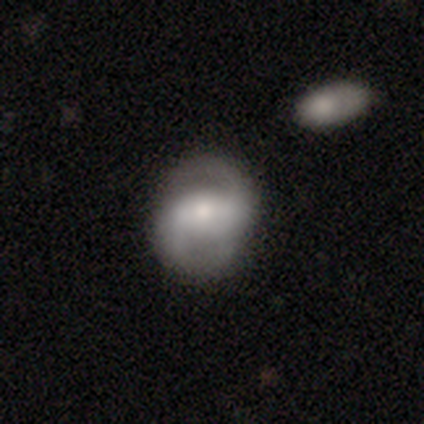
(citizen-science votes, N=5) Smooth or featured? featured or disk (100%)
Edge-on disk? no (100%)
Bar? weak (80%)
Spiral arms? yes (100%)
Spiral winding? loose (80%)
Spiral arm count? 2 (80%)
Bulge size? small (60%)
Merging? none (100%)